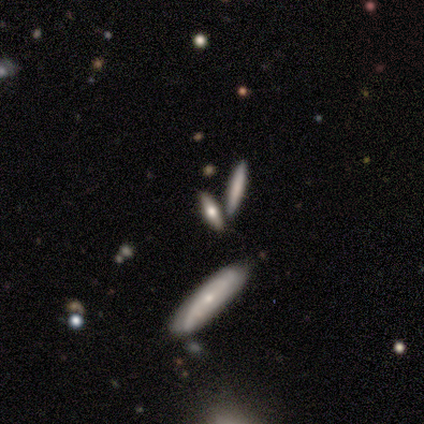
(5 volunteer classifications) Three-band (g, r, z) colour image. It shows a smooth galaxy with no disk features (40%, tied with star or artifact) that is cigar-shaped (100%). Merging: none (67%).